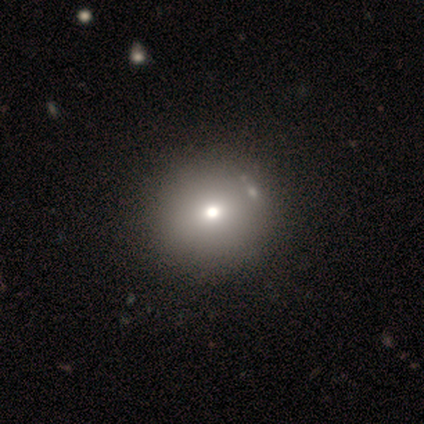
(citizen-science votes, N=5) Q: Smooth or featured?
A: smooth (60%); runner-up: star or artifact (40%)
Q: How rounded?
A: round (100%)
Q: Merging?
A: none (100%)